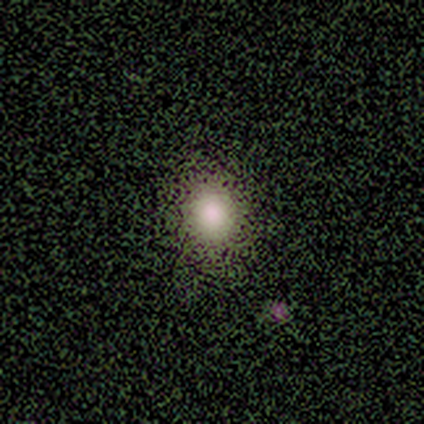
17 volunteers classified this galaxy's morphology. Smooth or featured? smooth (88%)
How rounded? round (80%)
Merging? none (80%)